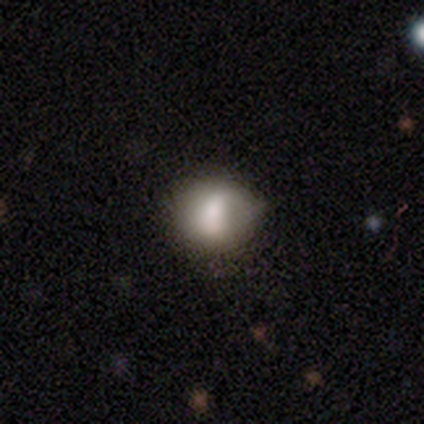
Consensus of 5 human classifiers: smooth 60%, featured or disk 20%, star or artifact 20%. Down the decision tree: how rounded — round (100%); merging — none (75%).